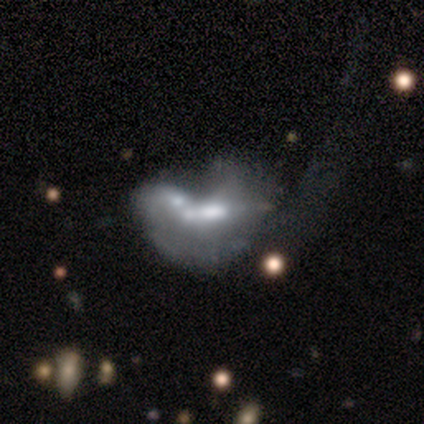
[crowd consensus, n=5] Overall: featured or disk (60%; star or artifact 40%). Edge-on disk: no (100%). Bar: no (67%; strong 33%). Spiral arms: no (100%). Bulge size: dominant (33%, tied with moderate and none). Merging: merger (100%).